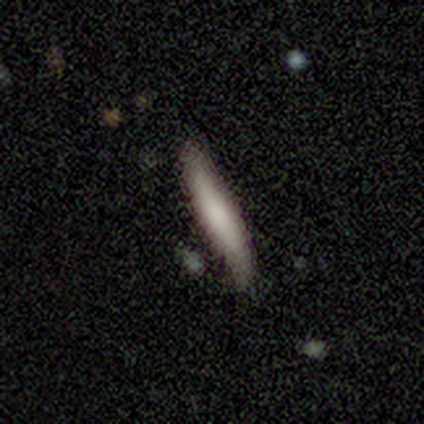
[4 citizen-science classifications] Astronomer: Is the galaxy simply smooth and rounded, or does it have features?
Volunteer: smooth — 75%.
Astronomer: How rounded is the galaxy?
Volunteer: cigar-shaped — 100%.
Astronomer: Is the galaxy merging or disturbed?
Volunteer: none — 75%.